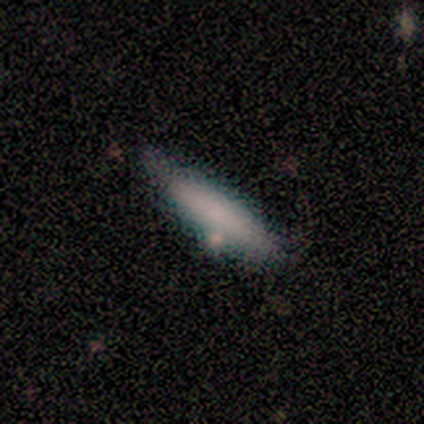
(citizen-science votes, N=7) smooth-or-featured: smooth: 71% | featured or disk: 14% | star or artifact: 14%
  how-rounded: in between: 60% | cigar-shaped: 40% | round: 0%
  merging: none: 50% | minor disturbance: 33% | merger: 17% | major disturbance: 0%